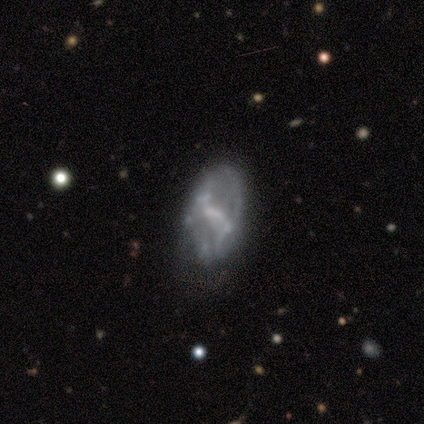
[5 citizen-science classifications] Smooth or featured? 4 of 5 (80%) said featured or disk. Edge-on disk? 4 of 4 (100%) said no. Bar? 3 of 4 (75%) said no. Spiral arms? 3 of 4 (75%) said no. Bulge size? 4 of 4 (100%) said none. Merging? 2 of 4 (50%) said major disturbance.